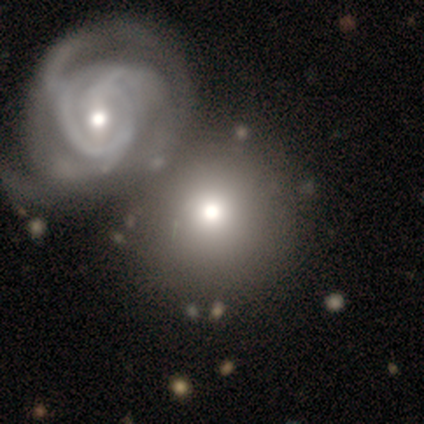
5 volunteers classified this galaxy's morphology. Smooth or featured?
  - smooth: 80% *
  - star or artifact: 20%
  - featured or disk: 0%
How rounded?
  - round: 100% *
  - in between: 0%
  - cigar-shaped: 0%
Merging?
  - merger: 50% *
  - none: 25%
  - minor disturbance: 25%
  - major disturbance: 0%